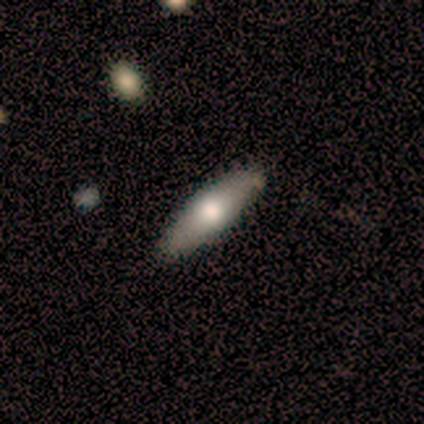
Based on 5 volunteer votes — Morphology: type=smooth (80%); roundness=cigar-shaped (100%); merging=none (80%).